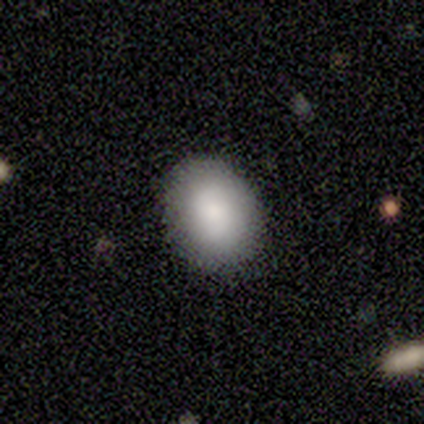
Volunteers were most divided on "how rounded": in between: 60%, round: 40%, cigar-shaped: 0%. More confident: smooth or featured — smooth (100%); merging — none (100%).